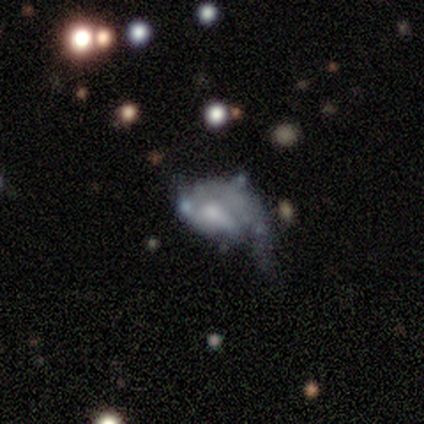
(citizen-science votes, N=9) Morphology: type=smooth (44%, tied with featured or disk); roundness=in between (50%); merging=minor disturbance (50%).